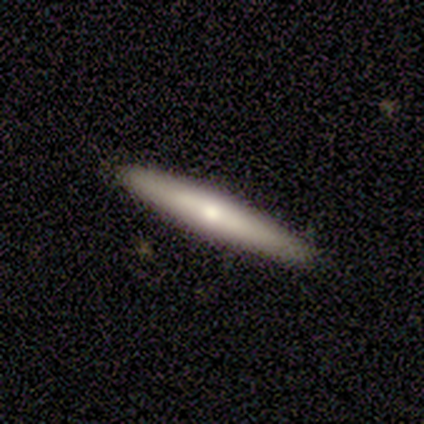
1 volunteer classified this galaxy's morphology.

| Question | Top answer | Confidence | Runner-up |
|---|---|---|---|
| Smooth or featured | featured or disk | 100% | — |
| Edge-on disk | yes | 100% | — |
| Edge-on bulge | rounded | 100% | — |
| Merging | none | 100% | — |